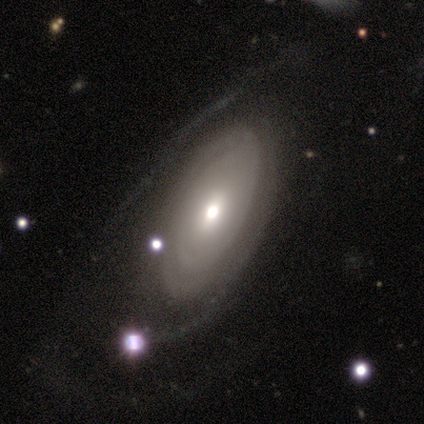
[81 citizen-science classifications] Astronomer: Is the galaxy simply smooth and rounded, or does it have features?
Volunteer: featured or disk — 67%.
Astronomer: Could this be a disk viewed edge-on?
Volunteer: no — 100%.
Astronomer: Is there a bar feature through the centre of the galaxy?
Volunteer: no — 70%.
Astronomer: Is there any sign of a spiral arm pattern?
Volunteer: yes — 56% (runner-up: no, 44%).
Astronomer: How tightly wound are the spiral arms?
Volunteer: tight — 70%.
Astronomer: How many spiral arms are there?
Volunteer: can't tell — 57%.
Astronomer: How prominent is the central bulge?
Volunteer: moderate — 54%.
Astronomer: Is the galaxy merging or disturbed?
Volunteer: none — 37% (runner-up: major disturbance, 32%).